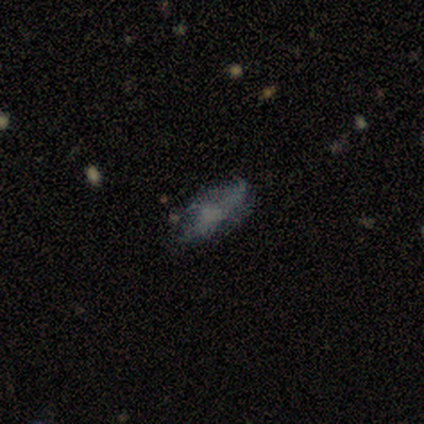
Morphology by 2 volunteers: Smooth or featured?
  - smooth: 50% * (tied)
  - star or artifact: 50% * (tied)
  - featured or disk: 0%
How rounded?
  - cigar-shaped: 100% *
  - round: 0%
  - in between: 0%
Merging?
  - none: 100% *
  - minor disturbance: 0%
  - major disturbance: 0%
  - merger: 0%